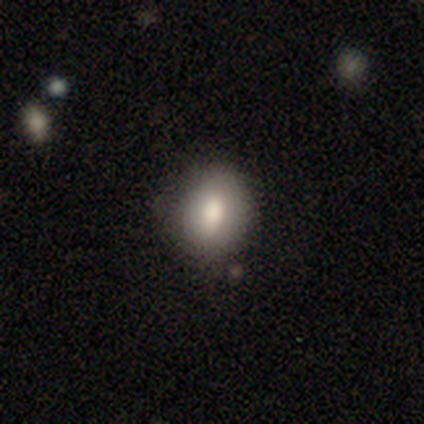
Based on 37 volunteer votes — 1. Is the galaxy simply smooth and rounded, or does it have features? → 73% smooth, 14% featured or disk, 14% star or artifact.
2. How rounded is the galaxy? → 52% round, 48% in between, 0% cigar-shaped.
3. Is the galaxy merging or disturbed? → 84% none, 9% minor disturbance, 3% major disturbance, 3% merger.